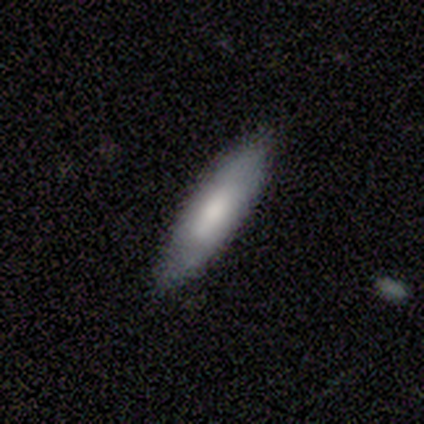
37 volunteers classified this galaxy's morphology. smooth 65%, featured or disk 24%, star or artifact 11%. Down the decision tree: how rounded — cigar-shaped (62%); merging — none (88%).